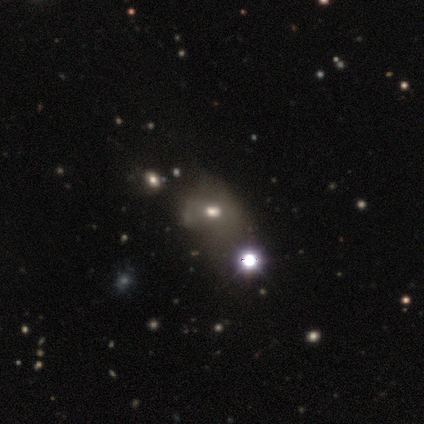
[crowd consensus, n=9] Smooth or featured?
  - star or artifact: 44% *
  - featured or disk: 33%
  - smooth: 22%